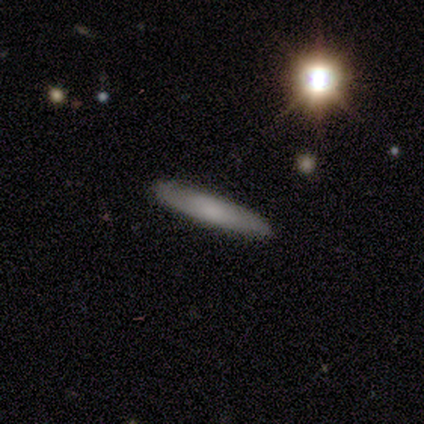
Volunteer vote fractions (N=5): A smooth galaxy with no disk features (40%, tied with featured or disk) that is cigar-shaped (100%).

Vote fractions:
- Smooth or featured? smooth: 40% (tied) / featured or disk: 40% (tied) / star or artifact: 20%
- How rounded? cigar-shaped: 100% / round: 0% / in between: 0%
- Merging? none: 100% / minor disturbance: 0% / major disturbance: 0% / merger: 0%